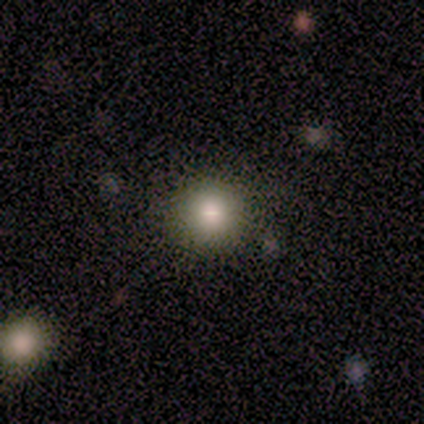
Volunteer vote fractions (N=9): Morphology: type=smooth (67%); roundness=round (100%); merging=none (86%).